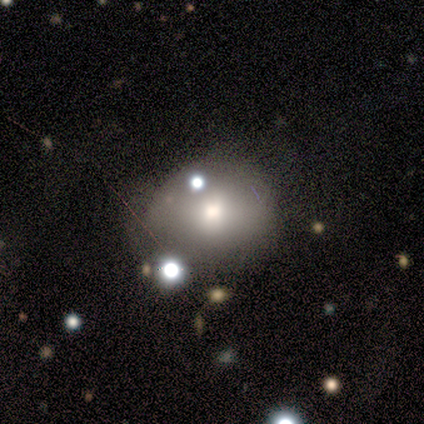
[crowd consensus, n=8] Smooth or featured? smooth (75%)
How rounded? round (83%)
Merging? none (71%)